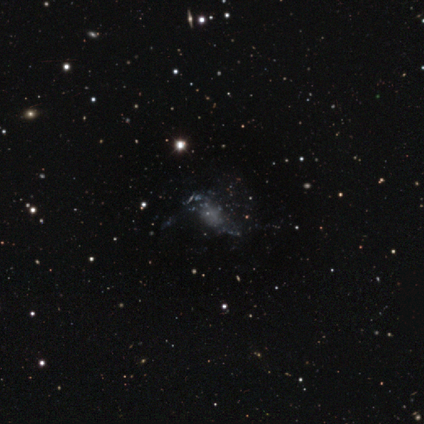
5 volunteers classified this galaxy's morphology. Smooth or featured?
  - featured or disk: 40% * (tied)
  - star or artifact: 40% * (tied)
  - smooth: 20%
Edge-on disk?
  - yes: 50% * (tied)
  - no: 50% * (tied)
Edge-on bulge?
  - none: 100% *
  - boxy: 0%
  - rounded: 0%
Merging?
  - major disturbance: 67% *
  - none: 33%
  - minor disturbance: 0%
  - merger: 0%